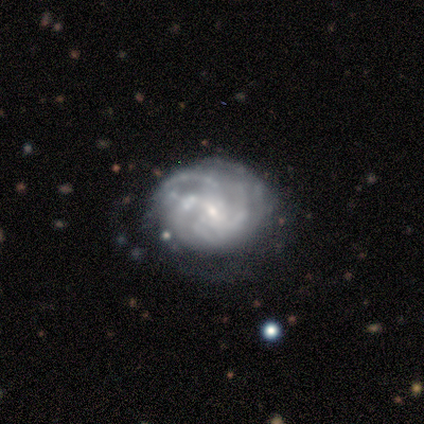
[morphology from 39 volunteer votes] This is likely a featured or disk galaxy (77%). It is clearly not viewed edge-on (93%). Bar: likely no (64%). Spiral arm pattern: clearly yes (86%). Spiral arm count: marginally can't tell (42%). Spiral winding: likely tight (75%). Central bulge: likely small (79%). Merging: likely none (62%).